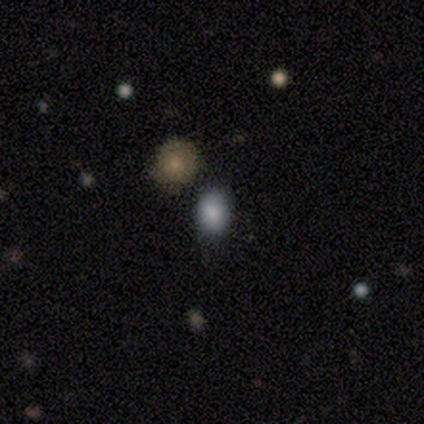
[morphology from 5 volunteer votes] Volunteers were most divided on "how rounded": in between: 75%, round: 25%, cigar-shaped: 0%. More confident: smooth or featured — smooth (80%); merging — none (80%).